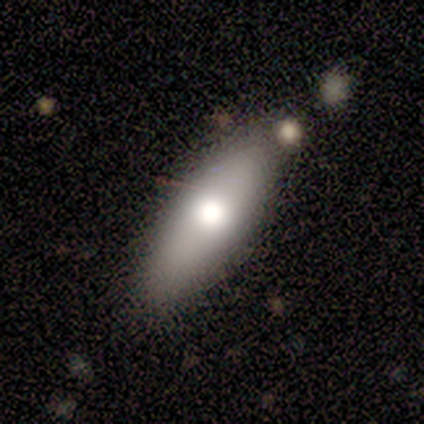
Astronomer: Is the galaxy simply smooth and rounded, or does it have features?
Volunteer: smooth — 50% (runner-up: featured or disk, 33%).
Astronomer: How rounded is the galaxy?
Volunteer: in between — 67%.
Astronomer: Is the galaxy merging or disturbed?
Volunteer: none — 80%.